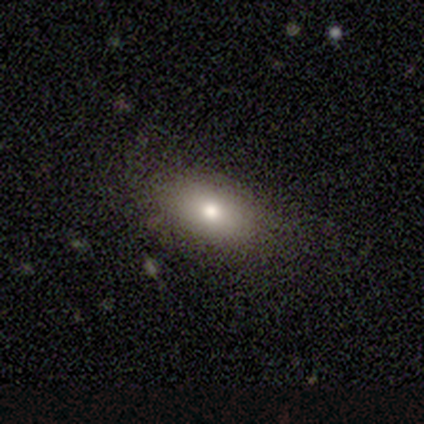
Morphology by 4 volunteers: Q: Smooth or featured?
A: smooth (75%); runner-up: star or artifact (25%)
Q: How rounded?
A: round (67%); runner-up: in between (33%)
Q: Merging?
A: none (67%); runner-up: minor disturbance (33%)